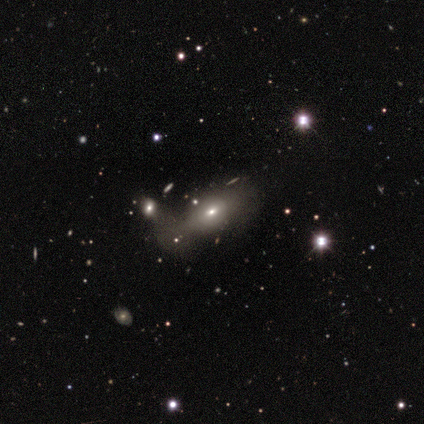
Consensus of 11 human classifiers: Volunteers were most divided on "merging": minor disturbance: 40%, none: 30%, merger: 30%, major disturbance: 0%. More confident: how rounded — in between (71%); smooth or featured — smooth (64%).